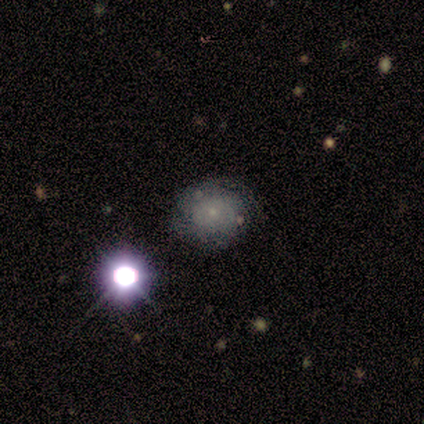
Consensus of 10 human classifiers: A smooth galaxy with no disk features (40%) that is round (100%).

Vote fractions:
- Smooth or featured? smooth: 40% / featured or disk: 30% / star or artifact: 30%
- How rounded? round: 100% / in between: 0% / cigar-shaped: 0%
- Merging? none: 86% / major disturbance: 14% / minor disturbance: 0% / merger: 0%